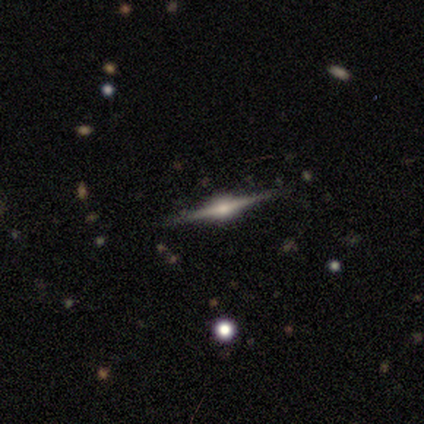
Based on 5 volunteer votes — Smooth or featured?
  - featured or disk: 100% *
  - smooth: 0%
  - star or artifact: 0%
Edge-on disk?
  - yes: 100% *
  - no: 0%
Edge-on bulge?
  - rounded: 100% *
  - boxy: 0%
  - none: 0%
Merging?
  - none: 100% *
  - minor disturbance: 0%
  - major disturbance: 0%
  - merger: 0%